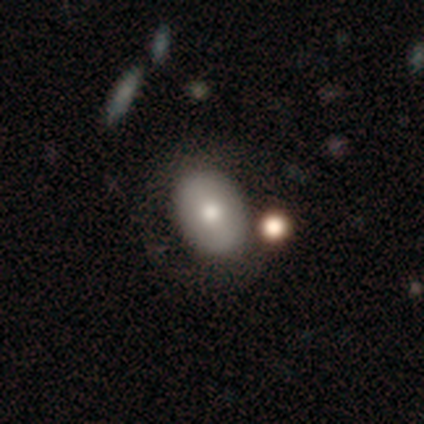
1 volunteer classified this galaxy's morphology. smooth-or-featured: smooth: 100% | featured or disk: 0% | star or artifact: 0%
  how-rounded: in between: 100% | round: 0% | cigar-shaped: 0%
  merging: minor disturbance: 100% | none: 0% | major disturbance: 0% | merger: 0%